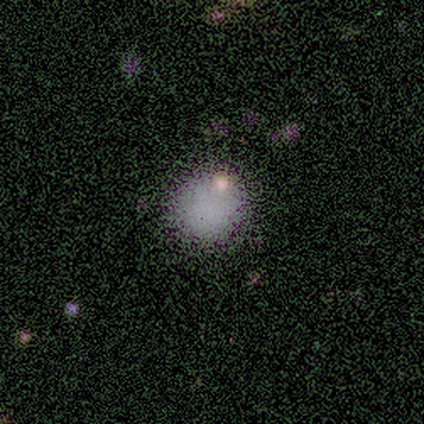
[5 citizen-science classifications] This appears to be a smooth galaxy with no disk features (80%) that is round (100%). Merging: none (75%).